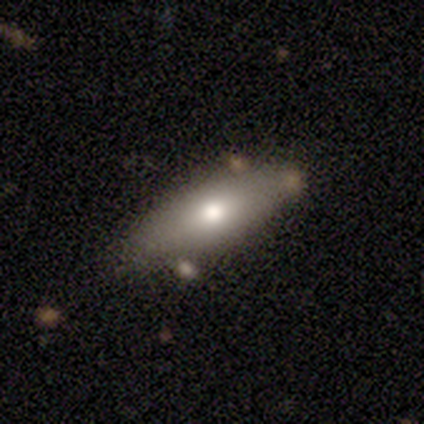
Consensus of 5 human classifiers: Smooth or featured: smooth — 60% (featured or disk — 40%)
How rounded: in between — 67% (cigar-shaped — 33%)
Merging: none — 80% (minor disturbance — 20%)